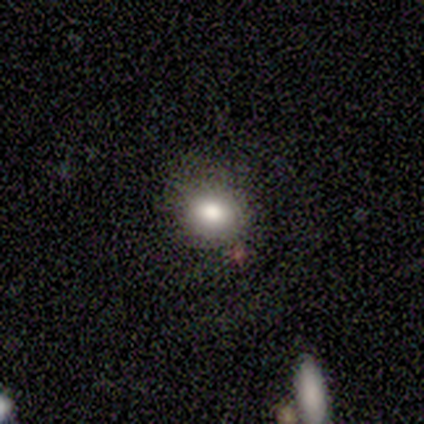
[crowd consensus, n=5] Smooth or featured? smooth (80%)
How rounded? round (50%, tied with in between)
Merging? none (75%)